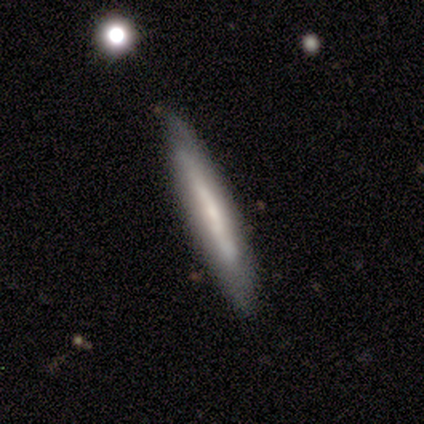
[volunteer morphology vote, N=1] This appears to be a featured or disk galaxy (100%) viewed edge-on (100%) with a boxy central bulge (100%). Merging: none (100%).